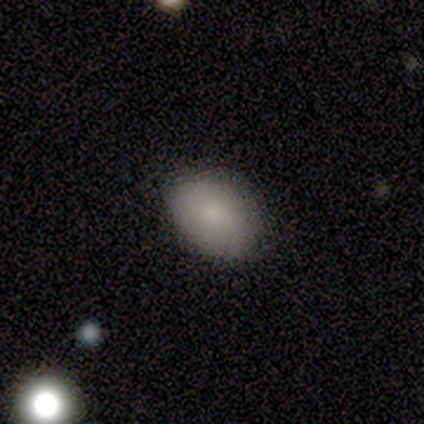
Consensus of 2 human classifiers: A smooth galaxy with no disk features (100%) that is round (50%, tied with in between).

Vote fractions:
- Smooth or featured? smooth: 100% / featured or disk: 0% / star or artifact: 0%
- How rounded? round: 50% (tied) / in between: 50% (tied) / cigar-shaped: 0%
- Merging? none: 100% / minor disturbance: 0% / major disturbance: 0% / merger: 0%